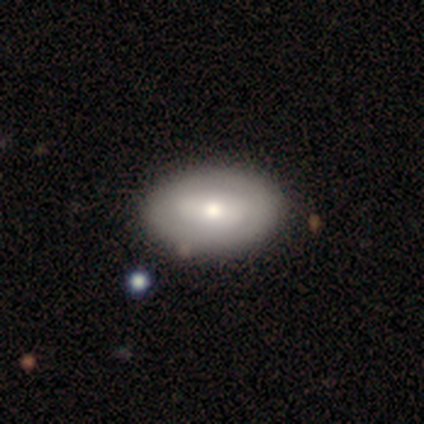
Smooth or featured? 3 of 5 (60%) said featured or disk. Edge-on disk? 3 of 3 (100%) said no. Bar? 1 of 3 (33%, tied with weak and no) said strong. Spiral arms? 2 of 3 (67%) said no. Bulge size? 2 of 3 (67%) said small. Merging? 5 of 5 (100%) said none.